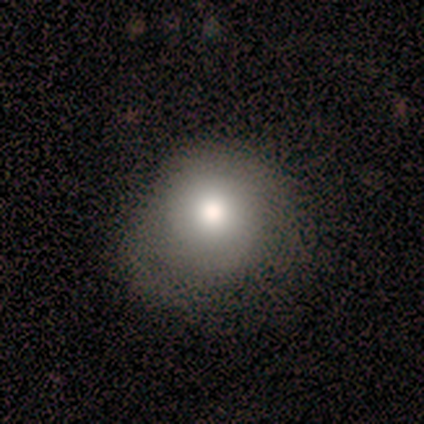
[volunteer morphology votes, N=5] Volunteers were most divided on "merging": none: 60%, minor disturbance: 40%, major disturbance: 0%, merger: 0%. More confident: smooth or featured — smooth (100%); how rounded — round (80%).